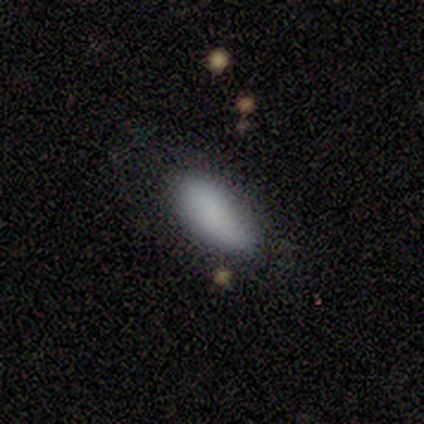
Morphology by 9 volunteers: Smooth or featured?
  - smooth: 89% *
  - featured or disk: 11%
  - star or artifact: 0%
How rounded?
  - in between: 88% *
  - cigar-shaped: 12%
  - round: 0%
Merging?
  - none: 67% *
  - minor disturbance: 22%
  - major disturbance: 11%
  - merger: 0%